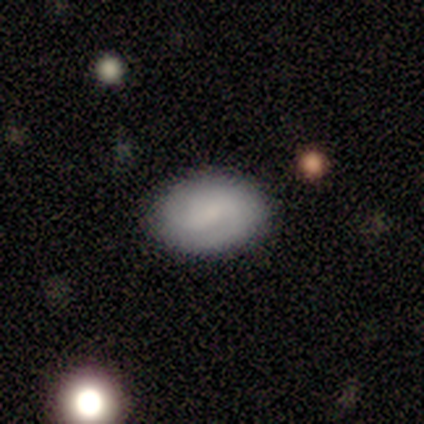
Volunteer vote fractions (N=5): Smooth or featured? 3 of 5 (60%) said smooth. How rounded? 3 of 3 (100%) said in between. Merging? 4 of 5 (80%) said none.